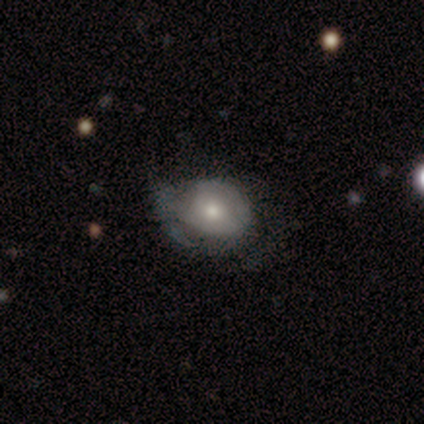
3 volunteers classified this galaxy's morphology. smooth 33% (tied), featured or disk 33% (tied), star or artifact 33% (tied). Down the decision tree: how rounded — in between (100%); merging — major disturbance (100%).